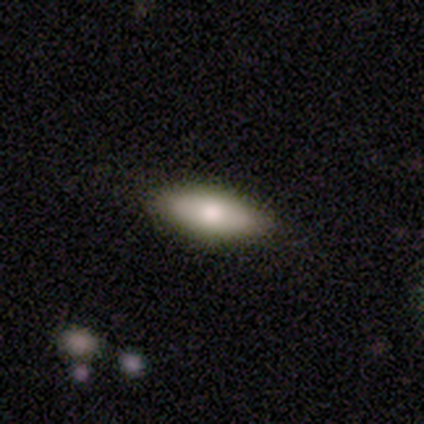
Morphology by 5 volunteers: type=smooth (60%); roundness=cigar-shaped (67%); merging=none (100%).